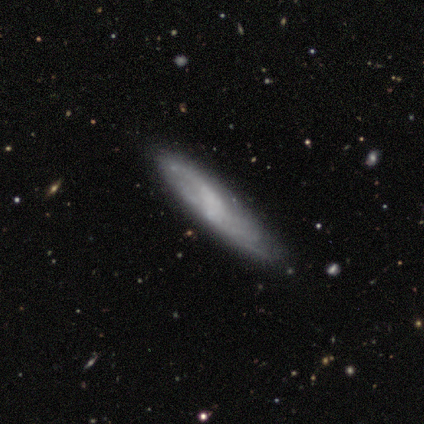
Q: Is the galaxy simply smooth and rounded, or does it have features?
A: smooth — 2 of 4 (50%, tied with featured or disk).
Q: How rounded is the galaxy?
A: cigar-shaped — 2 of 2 (100%).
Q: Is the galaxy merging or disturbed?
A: none — 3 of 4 (75%).